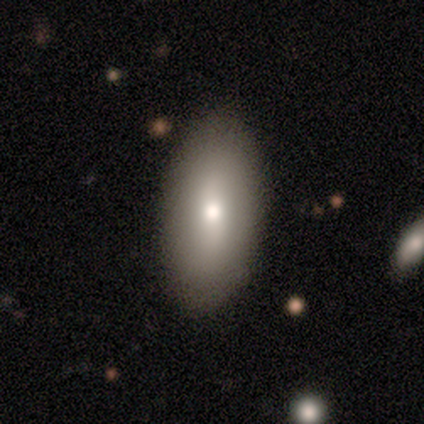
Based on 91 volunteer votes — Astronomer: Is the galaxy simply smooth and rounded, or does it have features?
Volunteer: smooth — 78%.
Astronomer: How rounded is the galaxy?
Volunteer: in between — 87%.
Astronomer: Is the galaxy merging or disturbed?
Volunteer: none — 88%.